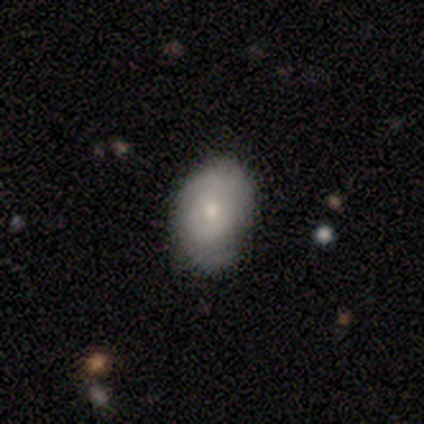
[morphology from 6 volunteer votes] A featured or disk galaxy (67%) with no bar (75%), 2 (33%, tied with 3 and can't tell) medium (67%) spiral arms (75%) and a moderate central bulge (50%, tied with small).

Vote fractions:
- Smooth or featured? featured or disk: 67% / smooth: 33% / star or artifact: 0%
- Edge-on disk? no: 100% / yes: 0%
- Bar? no: 75% / weak: 25% / strong: 0%
- Spiral arms? yes: 75% / no: 25%
- Spiral winding? medium: 67% / tight: 33% / loose: 0%
- Spiral arm count? 2: 33% (tied) / 3: 33% (tied) / can't tell: 33% (tied) / 1: 0% / 4: 0% / more than 4: 0%
- Bulge size? moderate: 50% (tied) / small: 50% (tied) / dominant: 0% / large: 0% / none: 0%
- Merging? none: 100% / minor disturbance: 0% / major disturbance: 0% / merger: 0%